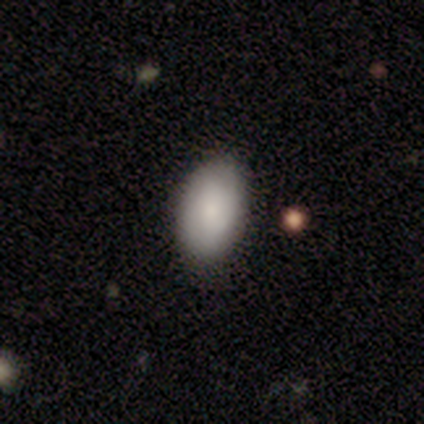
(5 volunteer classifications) This is clearly a smooth galaxy (80%). How rounded: clearly in between (100%). Merging: clearly none (100%).